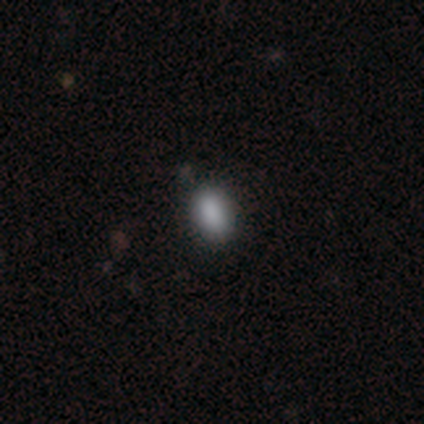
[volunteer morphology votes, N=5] Smooth or featured? 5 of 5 (100%) said smooth. How rounded? 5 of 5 (100%) said in between. Merging? 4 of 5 (80%) said none.